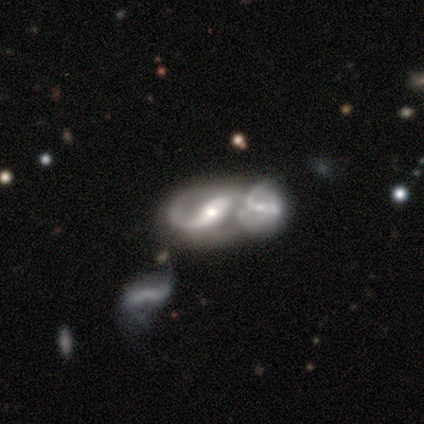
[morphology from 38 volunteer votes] type=featured or disk (84%); edge-on=no (100%); bar=strong (50%); spiral arms=yes (100%); winding=loose (47%); arm count=2 (56%); bulge=moderate (69%); merging=merger (78%).